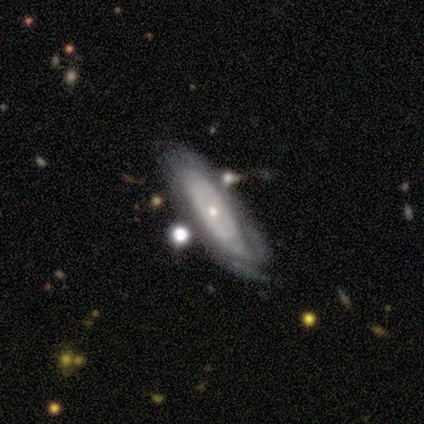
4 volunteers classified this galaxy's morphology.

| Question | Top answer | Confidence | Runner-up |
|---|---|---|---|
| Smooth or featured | featured or disk | 75% | smooth (25%) |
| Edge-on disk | no | 67% | yes (33%) |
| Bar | no | 100% | — |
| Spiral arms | yes | 50% | tied: no (50%) |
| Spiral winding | tight | 100% | — |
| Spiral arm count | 2 | 100% | — |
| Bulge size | small | 100% | — |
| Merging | none | 50% | tied: minor disturbance (50%) |